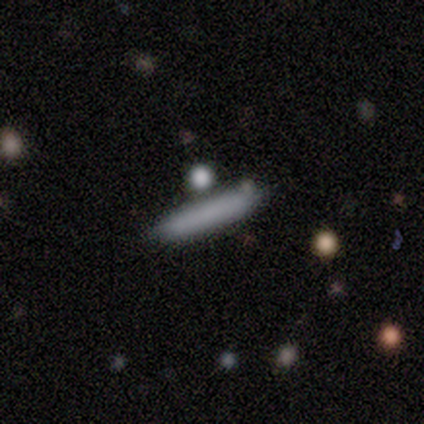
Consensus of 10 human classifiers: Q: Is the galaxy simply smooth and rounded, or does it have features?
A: smooth — 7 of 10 (70%).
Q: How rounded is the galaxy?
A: cigar-shaped — 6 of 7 (86%).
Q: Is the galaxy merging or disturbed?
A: none — 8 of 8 (100%).